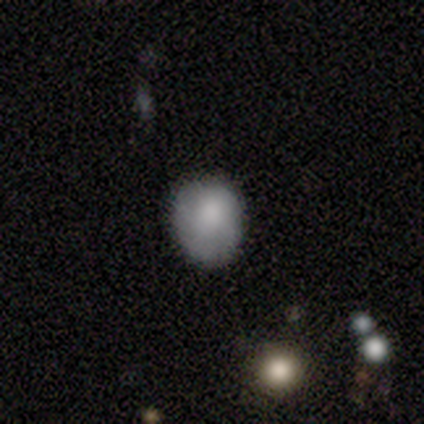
Smooth or featured? 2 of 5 (40%, tied with star or artifact) said smooth. How rounded? 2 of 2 (100%) said round. Merging? 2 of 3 (67%) said none.